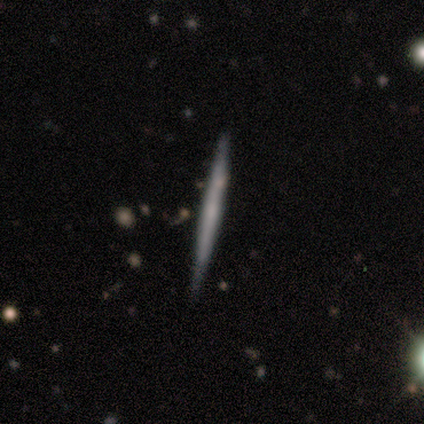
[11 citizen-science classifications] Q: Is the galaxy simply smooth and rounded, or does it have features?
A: featured or disk — 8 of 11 (73%).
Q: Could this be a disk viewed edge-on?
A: yes — 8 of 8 (100%).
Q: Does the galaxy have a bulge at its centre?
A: none — 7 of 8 (88%).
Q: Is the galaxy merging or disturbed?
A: none — 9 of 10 (90%).